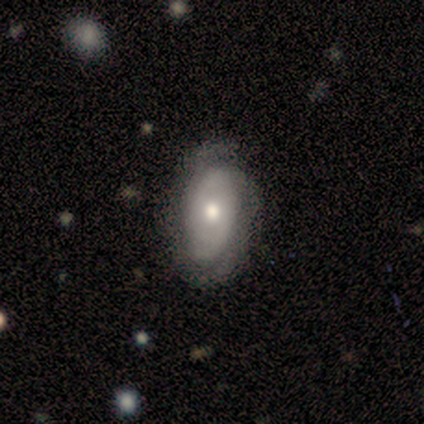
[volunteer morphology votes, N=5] A featured or disk galaxy (60%) with no bar (100%), 2 (50%, tied with can't tell) tight (50%, tied with medium) spiral arms (100%) and a small central bulge (100%).

Vote fractions:
- Smooth or featured? featured or disk: 60% / smooth: 40% / star or artifact: 0%
- Edge-on disk? no: 67% / yes: 33%
- Bar? no: 100% / strong: 0% / weak: 0%
- Spiral arms? yes: 100% / no: 0%
- Spiral winding? tight: 50% (tied) / medium: 50% (tied) / loose: 0%
- Spiral arm count? 2: 50% (tied) / can't tell: 50% (tied) / 1: 0% / 3: 0% / 4: 0% / more than 4: 0%
- Bulge size? small: 100% / dominant: 0% / large: 0% / moderate: 0% / none: 0%
- Merging? none: 100% / minor disturbance: 0% / major disturbance: 0% / merger: 0%